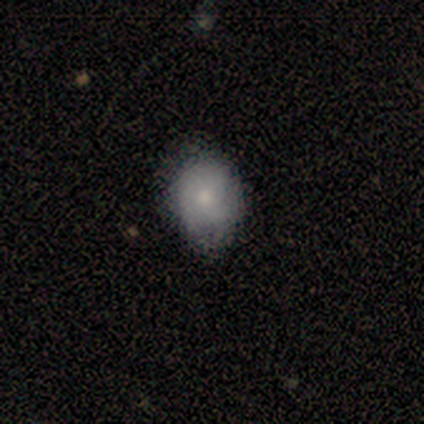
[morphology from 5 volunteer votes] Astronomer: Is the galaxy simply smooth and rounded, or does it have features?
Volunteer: smooth — 80%.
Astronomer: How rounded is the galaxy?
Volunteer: round — 100%.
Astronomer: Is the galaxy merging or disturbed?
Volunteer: none — 40%, tied with minor disturbance at 40%.